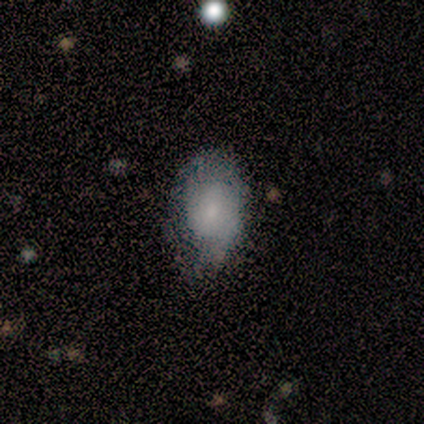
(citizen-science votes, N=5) Smooth or featured?
  - smooth: 60% *
  - featured or disk: 40%
  - star or artifact: 0%
How rounded?
  - in between: 100% *
  - round: 0%
  - cigar-shaped: 0%
Merging?
  - none: 60% *
  - minor disturbance: 40%
  - major disturbance: 0%
  - merger: 0%